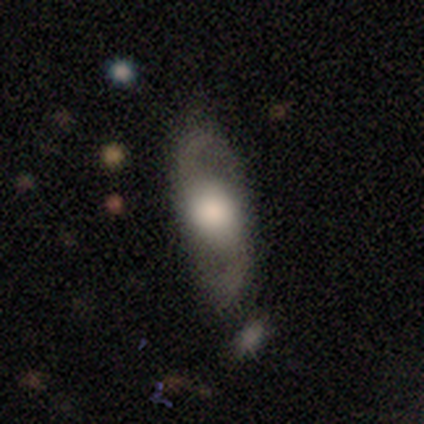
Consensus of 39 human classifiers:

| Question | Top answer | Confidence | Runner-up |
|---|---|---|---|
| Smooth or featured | featured or disk | 62% | smooth (33%) |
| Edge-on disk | no | 96% | yes (4%) |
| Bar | no | 87% | weak (9%) |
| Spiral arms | yes | 83% | no (17%) |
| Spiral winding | loose | 53% | medium (42%) |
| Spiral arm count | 2 | 100% | — |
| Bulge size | large | 65% | dominant (17%) |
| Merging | none | 73% | minor disturbance (14%) |